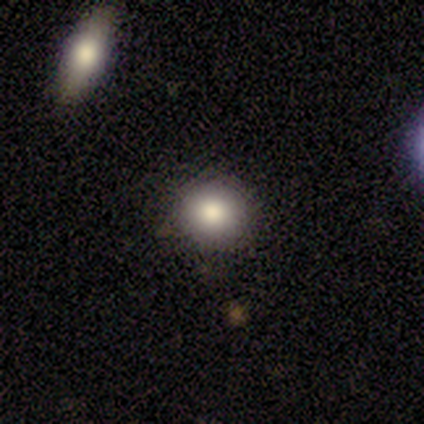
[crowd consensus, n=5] Q: Smooth or featured?
A: smooth (80%); runner-up: star or artifact (20%)
Q: How rounded?
A: round (100%)
Q: Merging?
A: none (75%); runner-up: minor disturbance (25%)